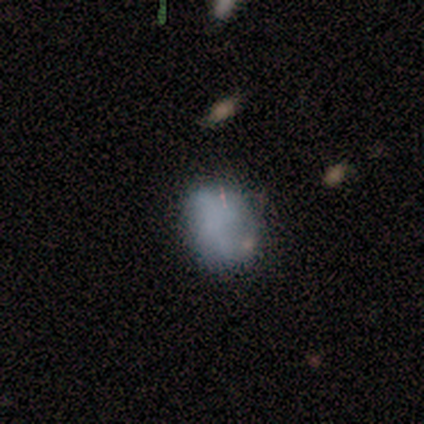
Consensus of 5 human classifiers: A smooth galaxy with no disk features (80%) that is round (50%, tied with in between). Merging: none (100%).